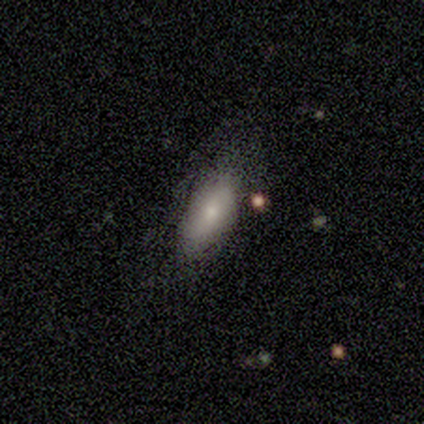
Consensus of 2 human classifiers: This is clearly a smooth galaxy (100%). How rounded: possibly in between (50%, tied with cigar-shaped). Merging: possibly none (50%, tied with minor disturbance).